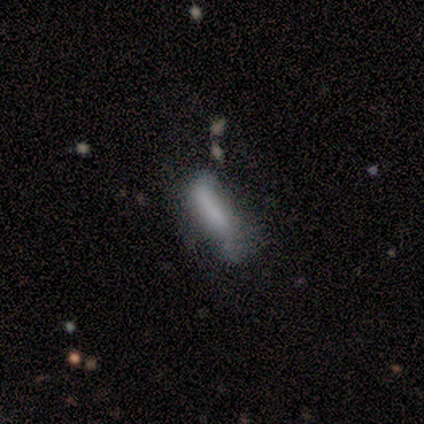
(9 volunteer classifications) This appears to be a smooth galaxy with no disk features (78%) that is cigar-shaped (86%). Merging: none (44%).